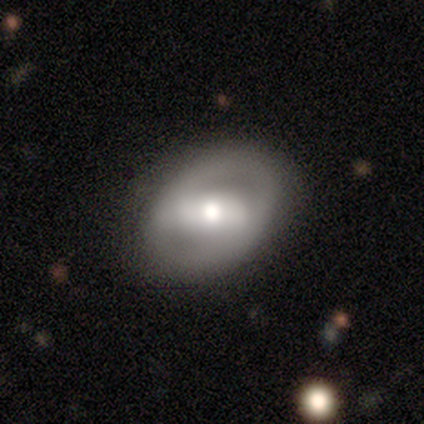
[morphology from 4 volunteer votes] Q: Smooth or featured?
A: featured or disk (100%)
Q: Edge-on disk?
A: no (100%)
Q: Bar?
A: strong (50%); tied with: weak (50%)
Q: Spiral arms?
A: yes (50%); tied with: no (50%)
Q: Spiral winding?
A: medium (50%); tied with: loose (50%)
Q: Spiral arm count?
A: 2 (100%)
Q: Bulge size?
A: moderate (75%); runner-up: small (25%)
Q: Merging?
A: none (100%)